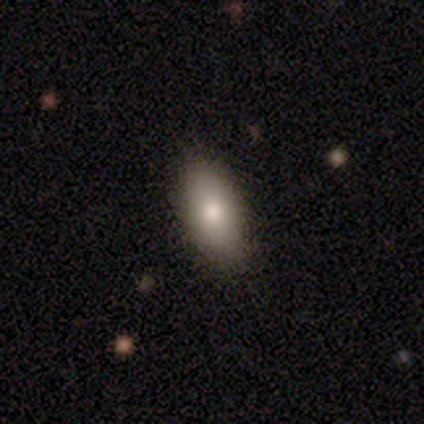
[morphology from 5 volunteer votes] Smooth or featured? smooth (100%)
How rounded? in between (80%)
Merging? none (100%)